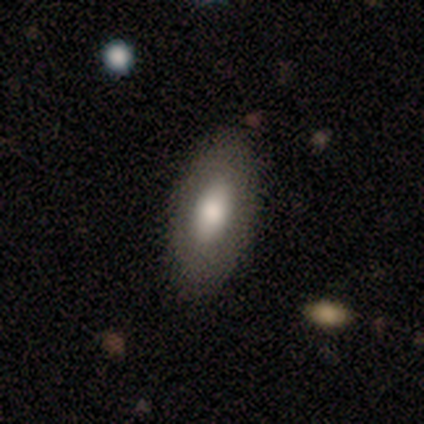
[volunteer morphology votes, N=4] Overall: smooth (75%). How rounded: in between (100%). Merging: none (100%).